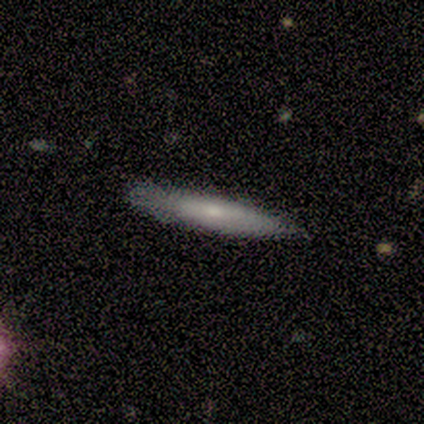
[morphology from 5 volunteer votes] Smooth or featured?
  - smooth: 60% *
  - featured or disk: 40%
  - star or artifact: 0%
How rounded?
  - cigar-shaped: 100% *
  - round: 0%
  - in between: 0%
Merging?
  - none: 100% *
  - minor disturbance: 0%
  - major disturbance: 0%
  - merger: 0%